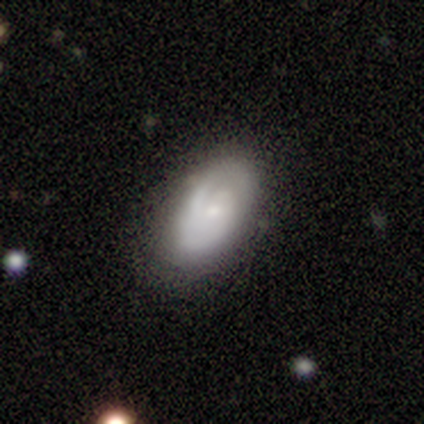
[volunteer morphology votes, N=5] Overall: featured or disk (60%; smooth 20%). Edge-on disk: no (100%). Bar: no (67%; strong 33%). Spiral arms: yes (100%). Spiral arm count: 1 (33%, tied with 2 and can't tell). Spiral winding: tight (100%). Bulge size: moderate (33%, tied with small and none). Merging: none (75%).